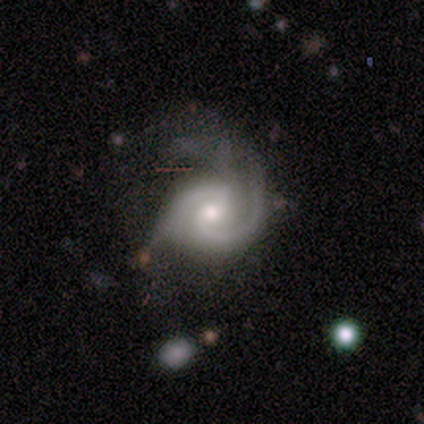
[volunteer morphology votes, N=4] This is clearly a featured or disk galaxy (100%). It is likely not viewed edge-on (75%). Bar: likely no (67%). Spiral arm pattern: clearly yes (100%). Spiral arm count: likely 2 (67%). Spiral winding: marginally tight (33%, tied with medium and loose). Central bulge: clearly moderate (100%). Merging: likely none (75%).